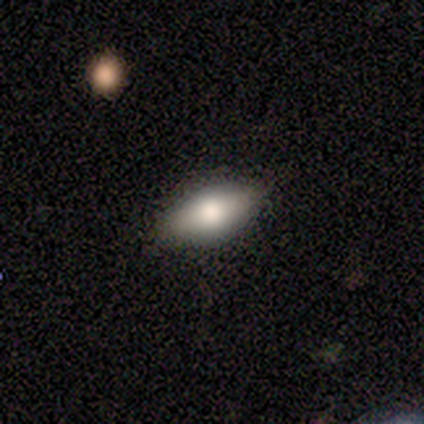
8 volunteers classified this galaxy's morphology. smooth-or-featured: smooth: 100% | featured or disk: 0% | star or artifact: 0%
  how-rounded: in between: 100% | round: 0% | cigar-shaped: 0%
  merging: none: 88% | minor disturbance: 12% | major disturbance: 0% | merger: 0%